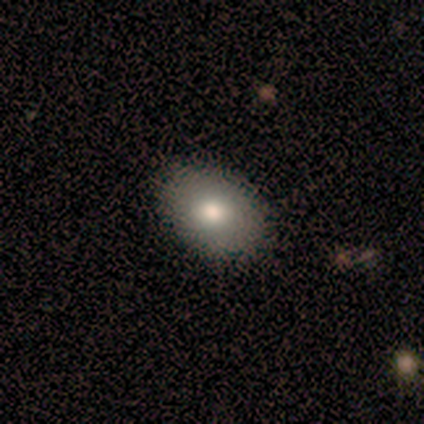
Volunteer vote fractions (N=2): Volunteers were most divided on "smooth or featured" (2-way tie): smooth: 50%, featured or disk: 50%, star or artifact: 0%; "merging" (2-way tie): none: 50%, minor disturbance: 50%, major disturbance: 0%, merger: 0%. More confident: how rounded — in between (100%).